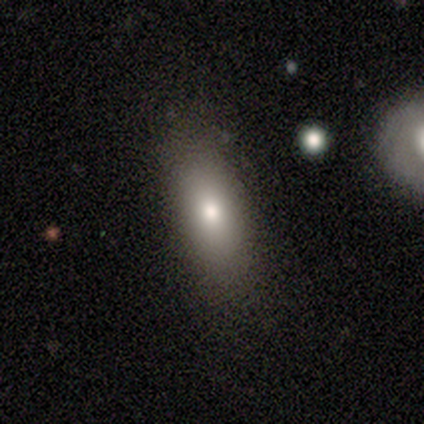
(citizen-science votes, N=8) This appears to be a smooth galaxy with no disk features (75%) that is in between round and cigar-shaped (83%). Merging: none (57%).